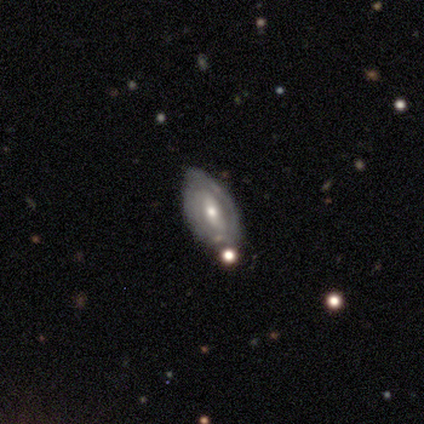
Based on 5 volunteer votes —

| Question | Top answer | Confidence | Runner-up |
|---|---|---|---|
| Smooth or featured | featured or disk | 80% | star or artifact (20%) |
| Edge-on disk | no | 75% | yes (25%) |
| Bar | weak | 67% | strong (33%) |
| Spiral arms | no | 67% | yes (33%) |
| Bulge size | small | 67% | moderate (33%) |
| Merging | none | 75% | minor disturbance (25%) |